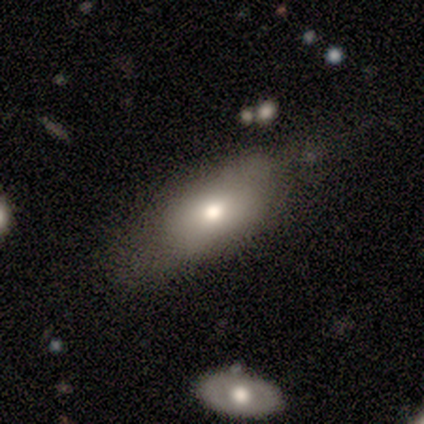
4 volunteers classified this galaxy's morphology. Smooth or featured: smooth — 50% (tied with featured or disk — 50%)
How rounded: in between — 100%
Merging: none — 50% (tied with minor disturbance — 50%)